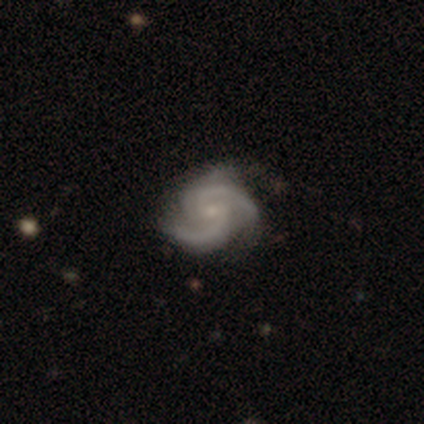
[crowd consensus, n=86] featured or disk 90%, star or artifact 8%, smooth 2%. Down the decision tree: edge-on disk — no (100%); bar — no (52%); spiral arms — yes (99%); spiral arm count — 2 (46%); spiral winding — medium (51%); bulge size — small (69%); merging — none (76%).